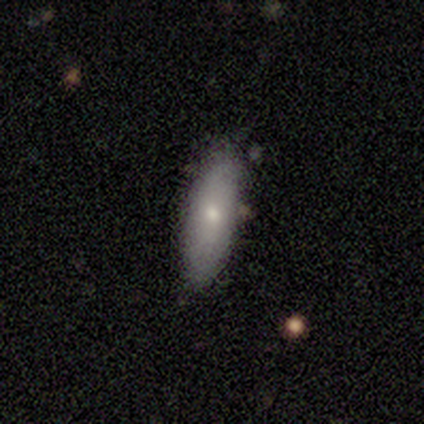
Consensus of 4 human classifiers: A featured or disk galaxy (75%) with no bar (100%), no spiral arms (100%) and a small central bulge (100%).

Vote fractions:
- Smooth or featured? featured or disk: 75% / smooth: 25% / star or artifact: 0%
- Edge-on disk? no: 67% / yes: 33%
- Bar? no: 100% / strong: 0% / weak: 0%
- Spiral arms? no: 100% / yes: 0%
- Bulge size? small: 100% / dominant: 0% / large: 0% / moderate: 0% / none: 0%
- Merging? none: 75% / major disturbance: 25% / minor disturbance: 0% / merger: 0%